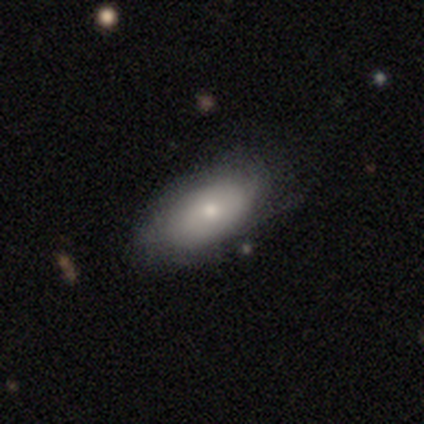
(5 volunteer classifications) Smooth or featured? 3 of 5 (60%) said featured or disk. Edge-on disk? 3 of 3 (100%) said no. Bar? 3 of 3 (100%) said no. Spiral arms? 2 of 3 (67%) said yes. Spiral winding? 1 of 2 (50%, tied with medium) said tight. Spiral arm count? 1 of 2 (50%, tied with can't tell) said 3. Bulge size? 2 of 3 (67%) said small. Merging? 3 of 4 (75%) said none.